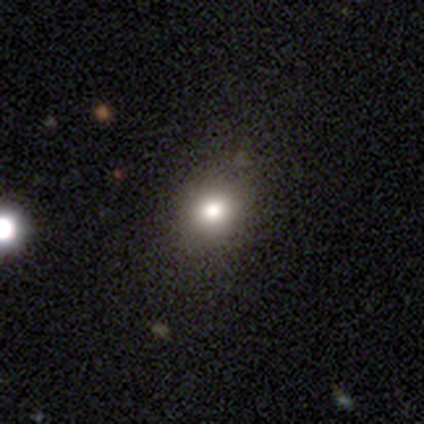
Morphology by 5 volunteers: This is likely a smooth galaxy (60%). How rounded: clearly round (100%). Merging: likely none (67%).